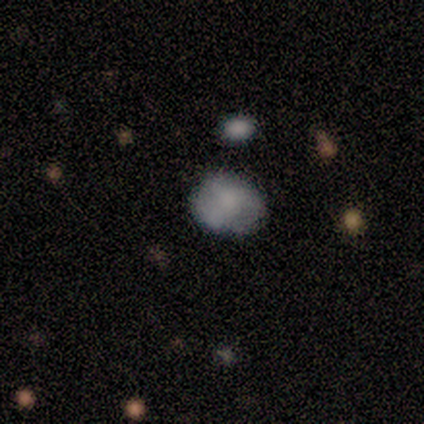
Smooth or featured? 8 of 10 (80%) said smooth. How rounded? 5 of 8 (62%) said in between. Merging? 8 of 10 (80%) said none.